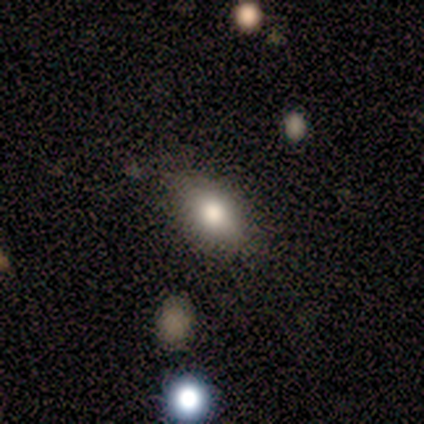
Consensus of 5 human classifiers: Smooth or featured? smooth (60%)
How rounded? in between (100%)
Merging? none (80%)